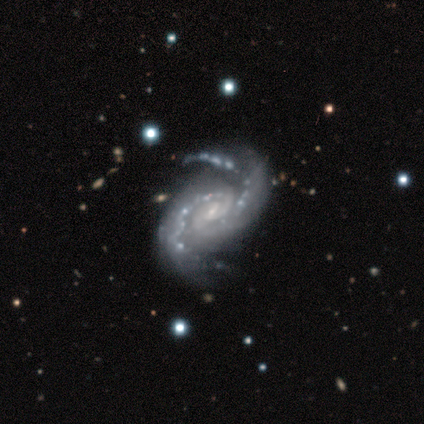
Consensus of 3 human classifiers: Smooth or featured: featured or disk — 100%
Edge-on disk: no — 100%
Bar: weak — 67% (no — 33%)
Spiral arms: yes — 100%
Spiral winding: medium — 67% (tight — 33%)
Spiral arm count: 2 — 100%
Bulge size: small — 100%
Merging: none — 67% (minor disturbance — 33%)